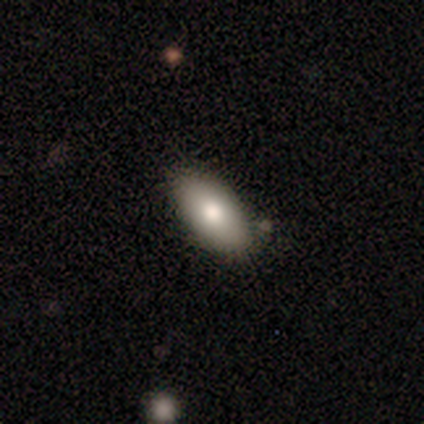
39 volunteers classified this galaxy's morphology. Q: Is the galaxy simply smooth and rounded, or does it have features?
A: smooth — 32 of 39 (82%).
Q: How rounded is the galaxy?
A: in between — 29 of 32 (91%).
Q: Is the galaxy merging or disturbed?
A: none — 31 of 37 (84%).